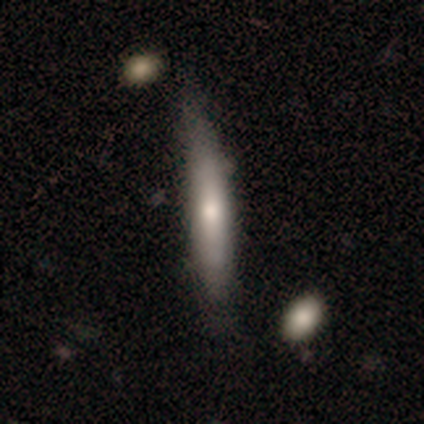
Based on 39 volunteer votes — Smooth or featured? 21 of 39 (54%) said smooth. How rounded? 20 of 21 (95%) said cigar-shaped. Merging? 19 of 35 (54%) said none.